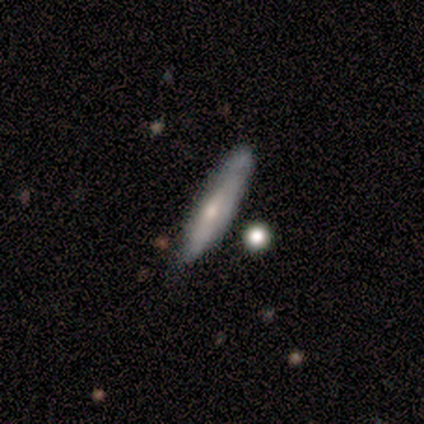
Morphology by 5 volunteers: A featured or disk galaxy (60%) viewed edge-on (100%) with a rounded central bulge (67%). Merging: none (100%).